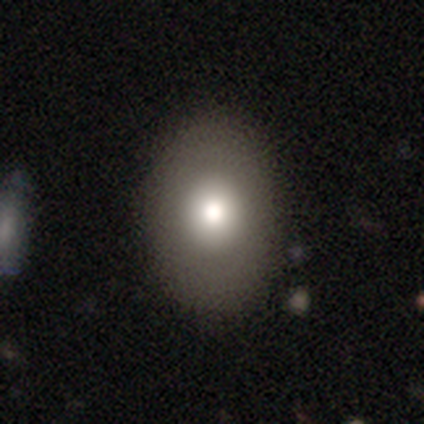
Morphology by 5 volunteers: Q: Smooth or featured?
A: smooth (80%); runner-up: featured or disk (20%)
Q: How rounded?
A: in between (75%); runner-up: round (25%)
Q: Merging?
A: none (100%)